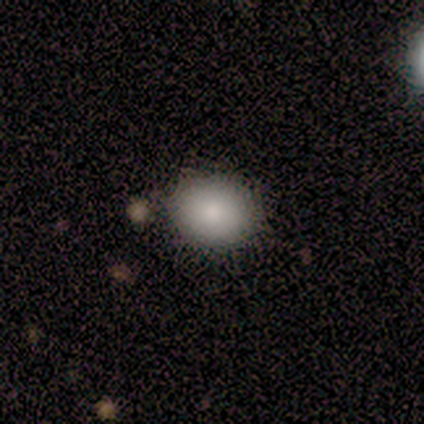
A smooth galaxy with no disk features (100%) that is round (60%). Merging: none (80%).